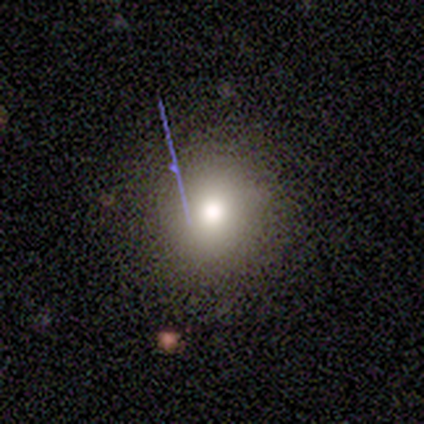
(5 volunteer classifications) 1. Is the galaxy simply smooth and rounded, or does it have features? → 80% smooth, 20% star or artifact, 0% featured or disk.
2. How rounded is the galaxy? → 100% round, 0% in between, 0% cigar-shaped.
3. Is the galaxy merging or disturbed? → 75% none, 25% minor disturbance, 0% major disturbance, 0% merger.